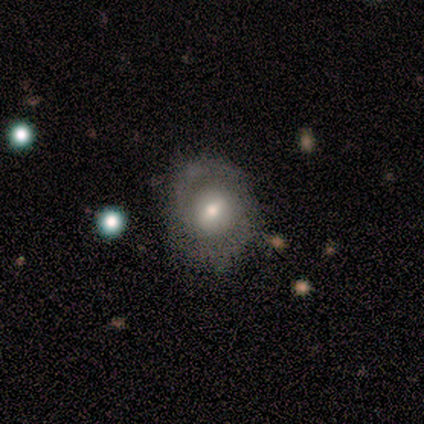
Overall: featured or disk (60%; smooth 20%). Edge-on disk: no (100%). Bar: weak (67%; no 33%). Spiral arms: yes (67%; no 33%). Spiral arm count: 2 (100%). Spiral winding: medium (50%, tied with loose). Bulge size: moderate (100%). Merging: none (75%).